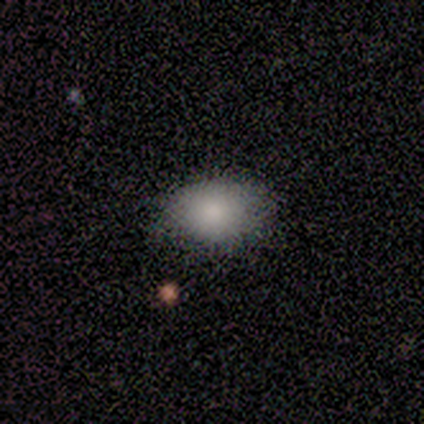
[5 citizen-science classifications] Smooth or featured? smooth (100%)
How rounded? in between (100%)
Merging? none (80%)